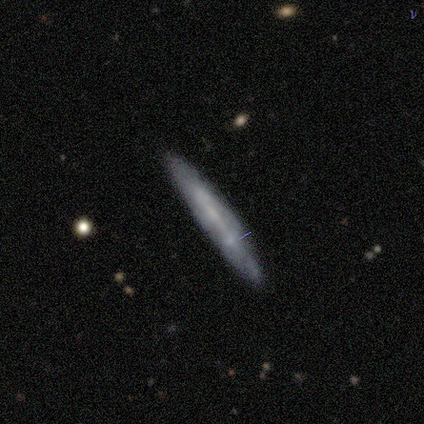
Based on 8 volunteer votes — Q: Smooth or featured?
A: featured or disk (62%); runner-up: smooth (38%)
Q: Edge-on disk?
A: yes (80%); runner-up: no (20%)
Q: Edge-on bulge?
A: none (50%); runner-up: boxy (25%)
Q: Merging?
A: none (88%); runner-up: minor disturbance (12%)